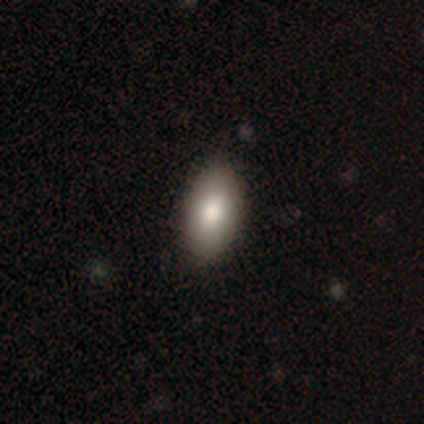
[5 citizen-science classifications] Overall: smooth (100%). How rounded: in between (60%; round 20%). Merging: none (100%).